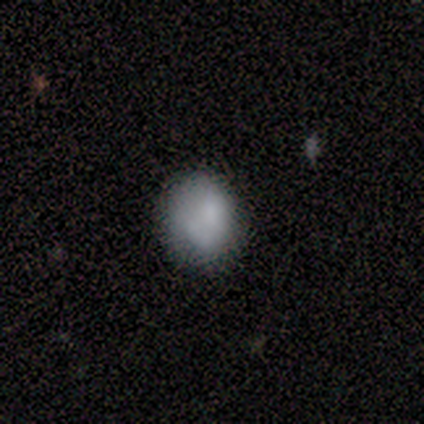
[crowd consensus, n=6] Q: Smooth or featured?
A: smooth (83%); runner-up: featured or disk (17%)
Q: How rounded?
A: round (60%); runner-up: in between (40%)
Q: Merging?
A: none (83%); runner-up: minor disturbance (17%)